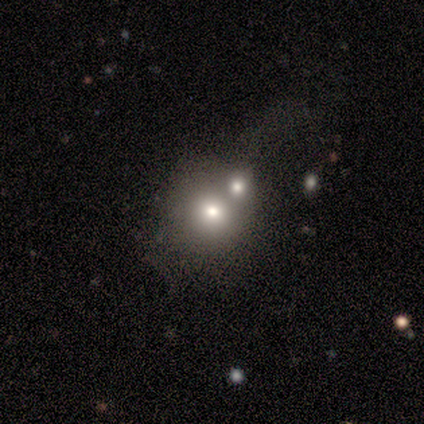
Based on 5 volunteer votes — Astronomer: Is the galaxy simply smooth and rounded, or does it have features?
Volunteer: smooth — 80%.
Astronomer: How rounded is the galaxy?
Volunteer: round — 100%.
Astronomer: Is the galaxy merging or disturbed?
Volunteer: merger — 75%.